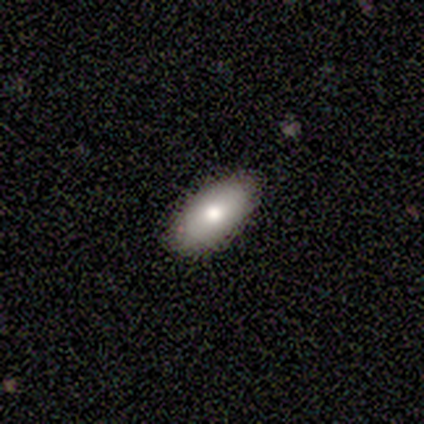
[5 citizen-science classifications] A smooth galaxy with no disk features (100%) that is in between round and cigar-shaped (100%). Merging: none (100%).